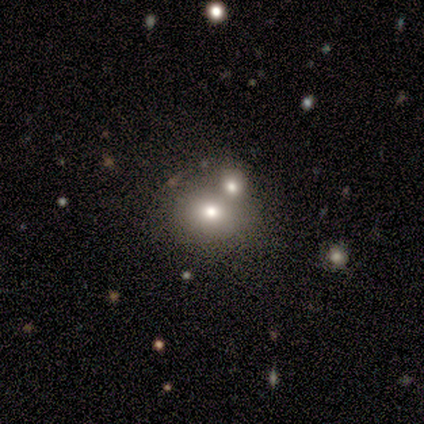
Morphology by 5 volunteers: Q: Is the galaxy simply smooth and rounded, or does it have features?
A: smooth — 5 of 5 (100%).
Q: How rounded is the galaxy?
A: in between — 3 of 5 (60%).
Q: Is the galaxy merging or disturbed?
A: merger — 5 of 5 (100%).